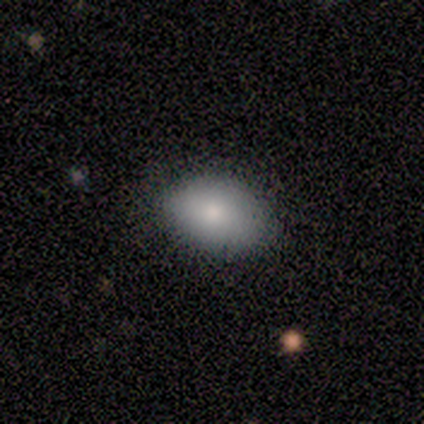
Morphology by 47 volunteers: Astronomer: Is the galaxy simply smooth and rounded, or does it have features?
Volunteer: smooth — 89%.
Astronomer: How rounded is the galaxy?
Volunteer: in between — 95%.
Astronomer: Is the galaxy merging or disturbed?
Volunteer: none — 77%.